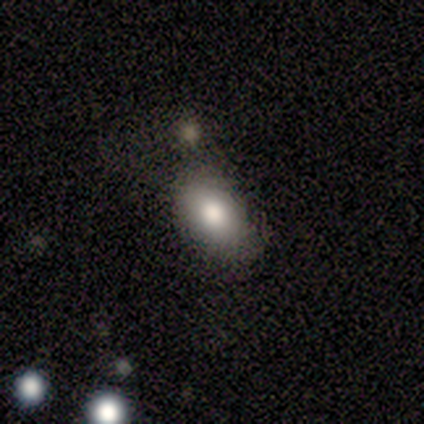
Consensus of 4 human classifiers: smooth 75%, star or artifact 25%, featured or disk 0%. Down the decision tree: how rounded — in between (100%); merging — none (67%).